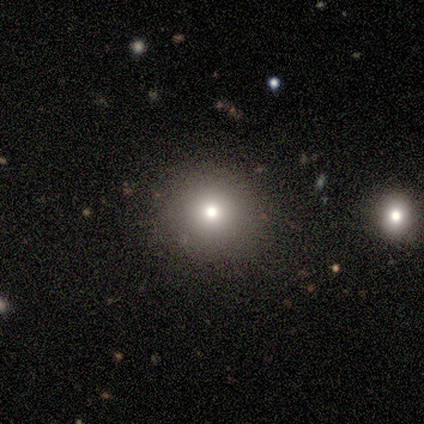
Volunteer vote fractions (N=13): smooth_or_featured: smooth (p=0.62) [alt: featured or disk p=0.23]
how_rounded: round (p=0.88) [alt: in between p=0.12]
merging: none (p=0.91) [alt: minor disturbance p=0.09]